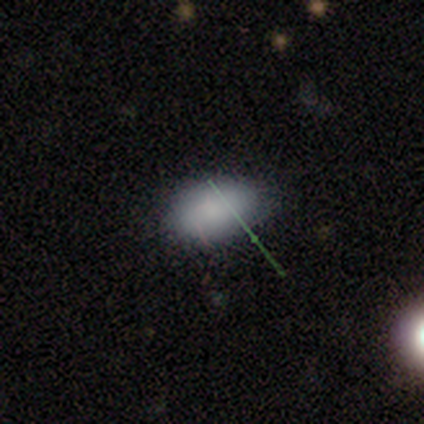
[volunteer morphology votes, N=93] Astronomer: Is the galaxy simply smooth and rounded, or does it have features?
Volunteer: smooth — 83%.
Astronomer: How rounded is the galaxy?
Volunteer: in between — 87%.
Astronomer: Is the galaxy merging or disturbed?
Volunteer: none — 80%.